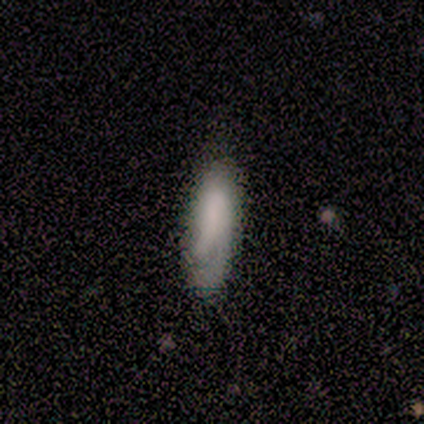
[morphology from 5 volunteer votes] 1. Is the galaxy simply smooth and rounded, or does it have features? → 40% smooth (tied), 40% star or artifact (tied), 20% featured or disk.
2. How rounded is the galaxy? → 100% in between, 0% round, 0% cigar-shaped.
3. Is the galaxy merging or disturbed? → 33% none (tied), 33% minor disturbance (tied), 33% major disturbance (tied), 0% merger.